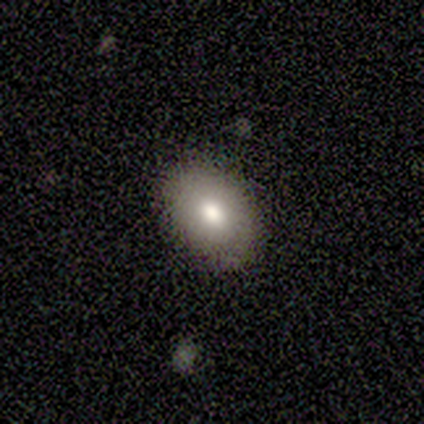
Smooth or featured? smooth (92%)
How rounded? in between (83%)
Merging? none (92%)